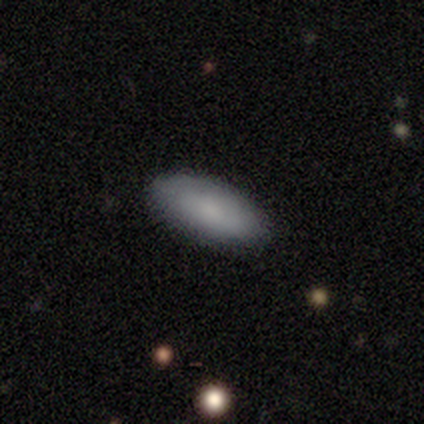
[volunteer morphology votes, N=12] smooth-or-featured: smooth: 83% | featured or disk: 17% | star or artifact: 0%
  how-rounded: in between: 80% | cigar-shaped: 20% | round: 0%
  merging: none: 92% | minor disturbance: 8% | major disturbance: 0% | merger: 0%